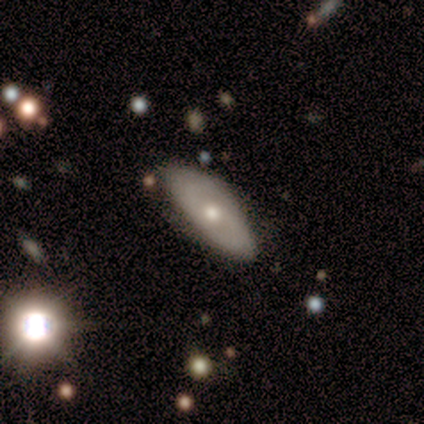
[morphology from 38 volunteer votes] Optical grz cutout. It shows a featured or disk galaxy (58%) with no bar (89%), 2 (56%) tight (67%) spiral arms (50%, tied with no) and a moderate central bulge (50%, tied with small). Merging: none (79%).